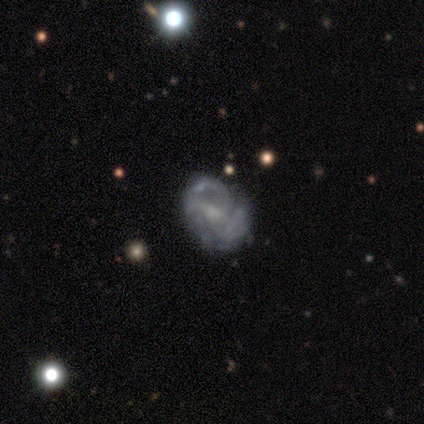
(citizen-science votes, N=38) smooth_or_featured: featured or disk (p=0.87) [alt: smooth p=0.11]
disk_edge_on: no (p=0.97) [alt: yes p=0.03]
bar: no (p=0.47) [alt: weak p=0.44]
has_spiral_arms: yes (p=0.78) [alt: no p=0.22]
spiral_winding: tight (p=0.40) [tied with: medium p=0.40]
spiral_arm_count: 3 (p=0.32) [alt: 2 p=0.24]
bulge_size: small (p=0.44) [alt: moderate p=0.38]
merging: none (p=0.70) [alt: minor disturbance p=0.14]